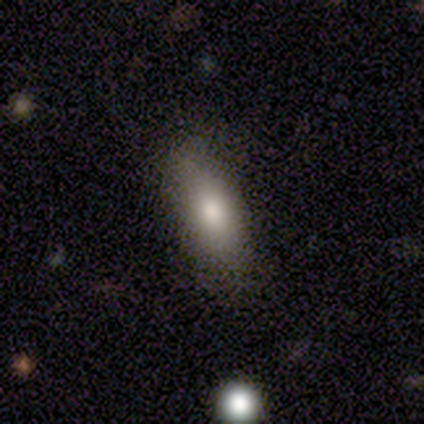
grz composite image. It shows a smooth galaxy with no disk features (100%) that is in between round and cigar-shaped (80%). Merging: none (80%).